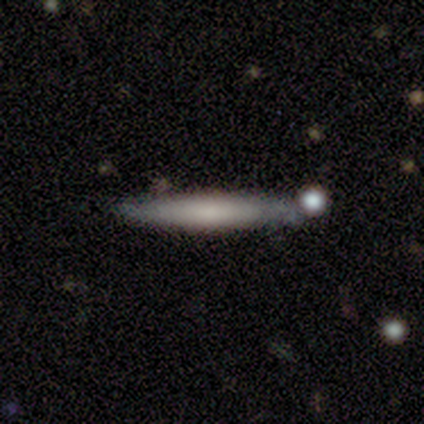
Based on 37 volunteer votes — smooth 57%, featured or disk 38%, star or artifact 5%. Down the decision tree: how rounded — cigar-shaped (95%); merging — none (66%).